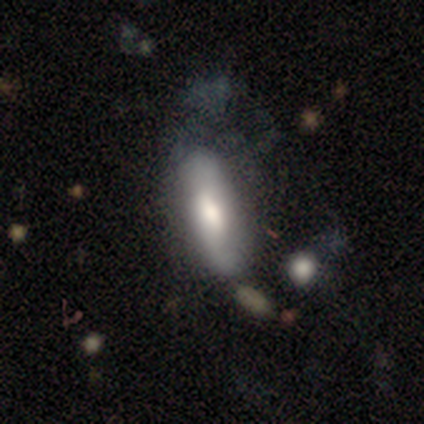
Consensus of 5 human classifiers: Smooth or featured?
  - smooth: 60% *
  - featured or disk: 40%
  - star or artifact: 0%
How rounded?
  - in between: 100% *
  - round: 0%
  - cigar-shaped: 0%
Merging?
  - major disturbance: 60% *
  - minor disturbance: 40%
  - none: 0%
  - merger: 0%